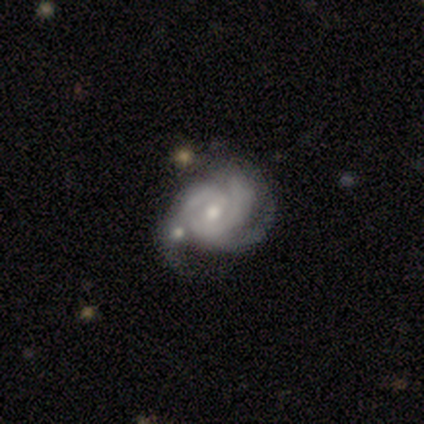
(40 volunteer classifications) smooth_or_featured: featured or disk (p=0.95) [alt: star or artifact p=0.05]
disk_edge_on: no (p=1.00)
bar: no (p=0.55) [alt: weak p=0.37]
has_spiral_arms: yes (p=0.97) [alt: no p=0.03]
spiral_winding: tight (p=0.49) [alt: medium p=0.35]
spiral_arm_count: 3 (p=0.49) [alt: 2 p=0.24]
bulge_size: moderate (p=0.55) [alt: small p=0.39]
merging: none (p=0.21) [alt: minor disturbance p=0.18]